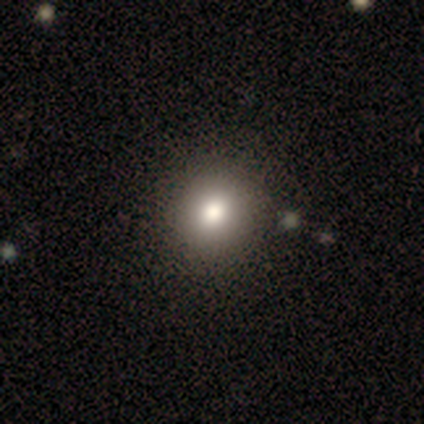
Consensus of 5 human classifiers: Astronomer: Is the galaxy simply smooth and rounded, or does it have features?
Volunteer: star or artifact — 60% (runner-up: smooth, 40%).